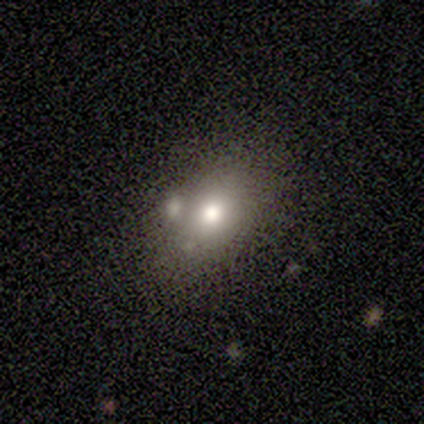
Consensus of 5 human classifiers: Smooth or featured: smooth — 100%
How rounded: in between — 60% (round — 40%)
Merging: none — 60% (merger — 40%)